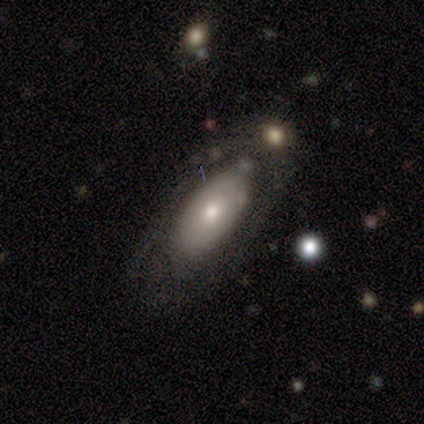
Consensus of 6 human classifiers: Morphology: type=smooth (50%, tied with featured or disk); roundness=in between (100%); merging=none (83%).